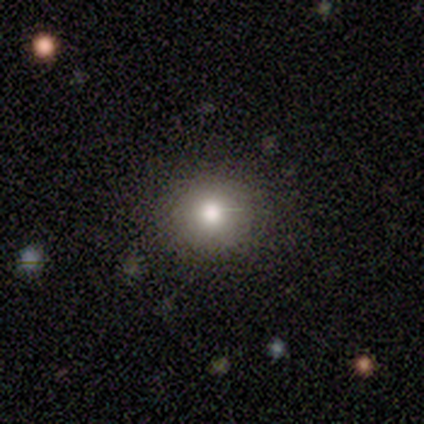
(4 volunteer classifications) smooth 50% (tied), star or artifact 50% (tied), featured or disk 0%. Down the decision tree: how rounded — round (100%); merging — none (100%).